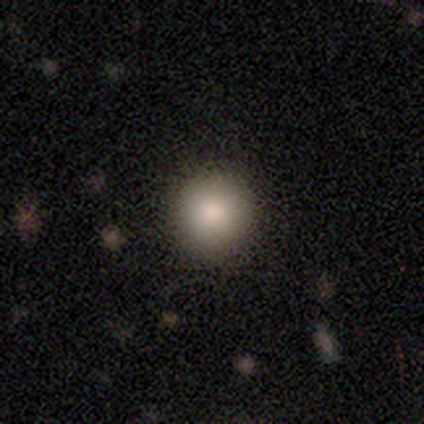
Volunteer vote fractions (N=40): Morphology: type=smooth (75%); roundness=round (97%); merging=none (89%).